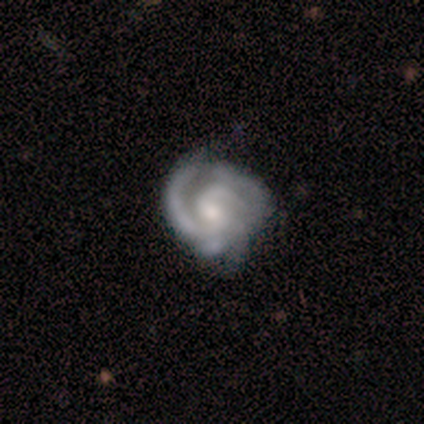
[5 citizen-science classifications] Volunteers were most divided on "spiral arm count" (2-way tie): 2: 40%, 3: 40%, can't tell: 20%, 1: 0%, 4: 0%, more than 4: 0%. More confident: smooth or featured — featured or disk (100%); edge-on disk — no (100%); spiral arms — yes (100%); bar — no (60%); spiral winding — medium (60%); merging — none (60%); bulge size — small (60%).